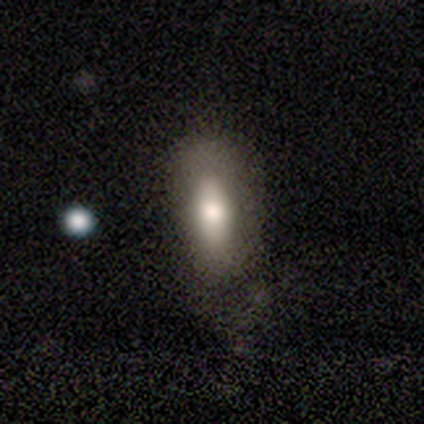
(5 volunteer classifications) A smooth galaxy with no disk features (80%) that is in between round and cigar-shaped (75%). Merging: major disturbance (50%).